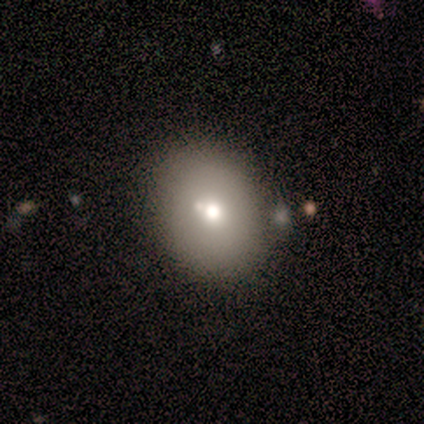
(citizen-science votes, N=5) Smooth or featured: smooth — 100%
How rounded: in between — 80% (round — 20%)
Merging: none — 80% (merger — 20%)